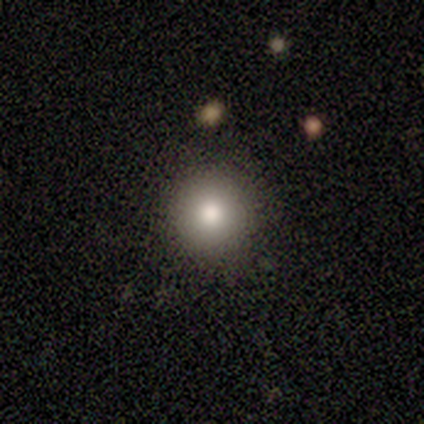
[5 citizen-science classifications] Overall: smooth (80%). How rounded: round (100%). Merging: none (100%).